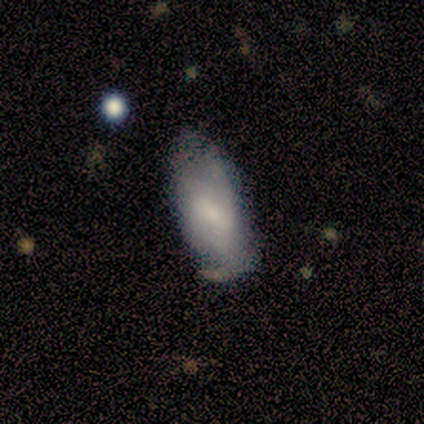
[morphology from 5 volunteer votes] This is marginally a smooth galaxy (40%, tied with featured or disk). How rounded: clearly in between (100%). Merging: likely minor disturbance (75%).